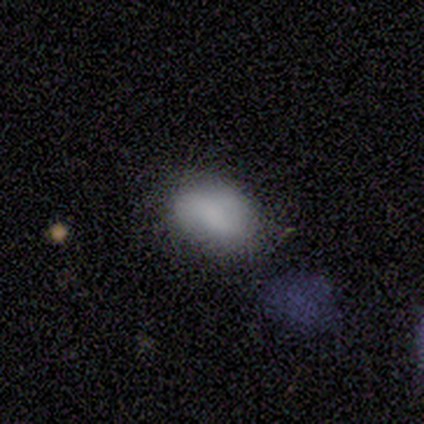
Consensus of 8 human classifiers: A smooth galaxy with no disk features (88%) that is in between round and cigar-shaped (71%).

Vote fractions:
- Smooth or featured? smooth: 88% / featured or disk: 12% / star or artifact: 0%
- How rounded? in between: 71% / round: 14% / cigar-shaped: 14%
- Merging? minor disturbance: 50% / none: 38% / major disturbance: 12% / merger: 0%